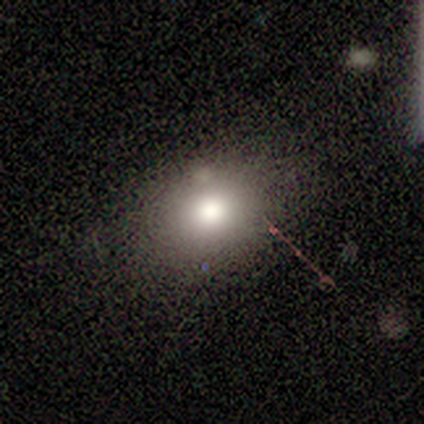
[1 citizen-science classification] This is clearly a smooth galaxy (100%). How rounded: clearly in between (100%). Merging: clearly none (100%).